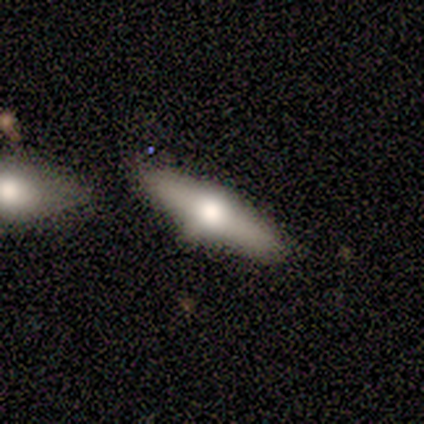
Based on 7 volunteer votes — Overall: featured or disk (71%). Edge-on disk: yes (100%). Edge-on bulge: rounded (100%). Merging: none (86%).